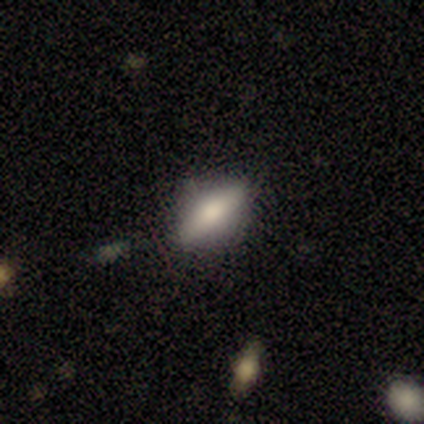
Overall: smooth (75%). How rounded: in between (89%). Merging: none (83%).